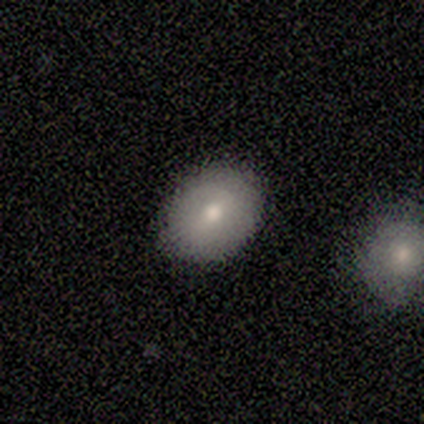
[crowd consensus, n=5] Overall: smooth (100%). How rounded: in between (80%). Merging: none (100%).